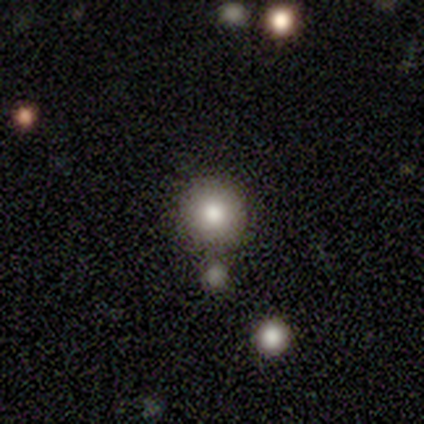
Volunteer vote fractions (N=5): smooth 80%, featured or disk 20%, star or artifact 0%. Down the decision tree: how rounded — round (100%); merging — none (80%).